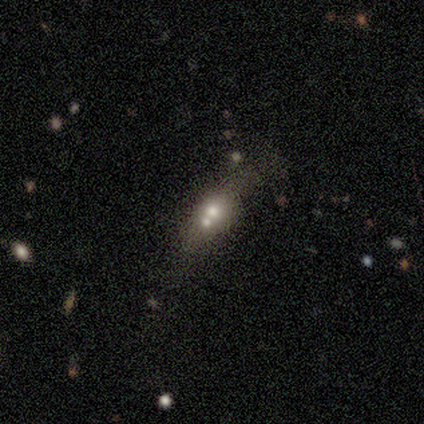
This appears to be a smooth galaxy with no disk features (40%, tied with featured or disk) that is in between round and cigar-shaped (50%, tied with cigar-shaped). Merging: none (75%).